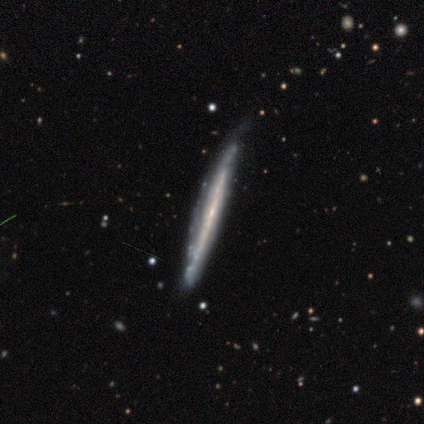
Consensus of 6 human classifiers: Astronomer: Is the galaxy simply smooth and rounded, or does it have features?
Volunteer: featured or disk — 67%.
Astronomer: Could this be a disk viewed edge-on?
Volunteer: yes — 75%.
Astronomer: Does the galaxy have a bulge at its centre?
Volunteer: none — 100%.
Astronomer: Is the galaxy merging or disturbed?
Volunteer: none — 60% (runner-up: minor disturbance, 40%).